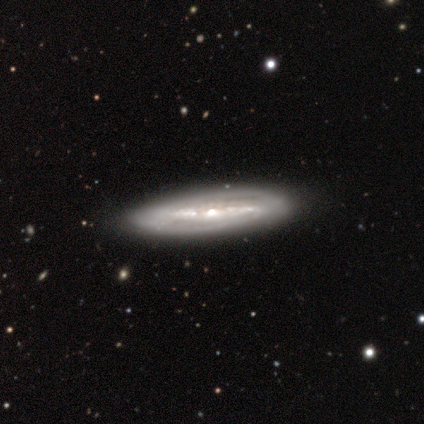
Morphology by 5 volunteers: This is clearly a featured or disk galaxy (100%). It is likely not viewed edge-on (60%). Bar: likely strong (67%). Spiral arm pattern: clearly yes (100%). Spiral arm count: likely can't tell (67%). Spiral winding: clearly tight (100%). Central bulge: likely moderate (67%). Merging: clearly none (100%).